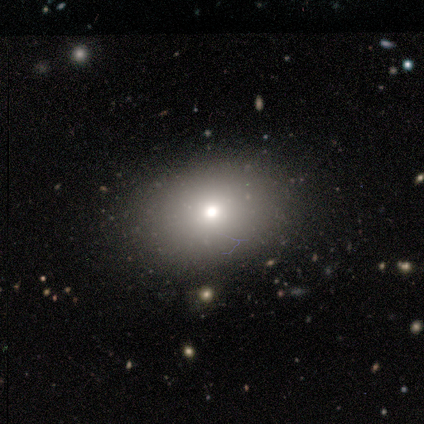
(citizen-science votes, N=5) This appears to be a smooth galaxy with no disk features (80%) that is in between round and cigar-shaped (100%). Merging: none (80%).